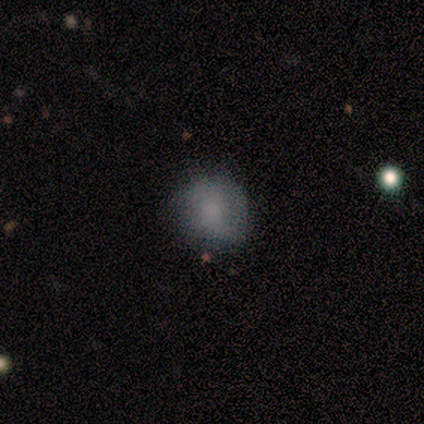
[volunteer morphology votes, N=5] This appears to be a smooth galaxy with no disk features (80%) that is round (50%, tied with in between). Merging: none (75%).